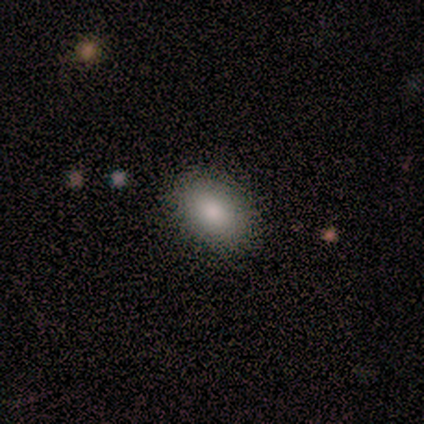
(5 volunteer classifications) Smooth or featured?
  - smooth: 80% *
  - featured or disk: 20%
  - star or artifact: 0%
How rounded?
  - in between: 100% *
  - round: 0%
  - cigar-shaped: 0%
Merging?
  - none: 100% *
  - minor disturbance: 0%
  - major disturbance: 0%
  - merger: 0%